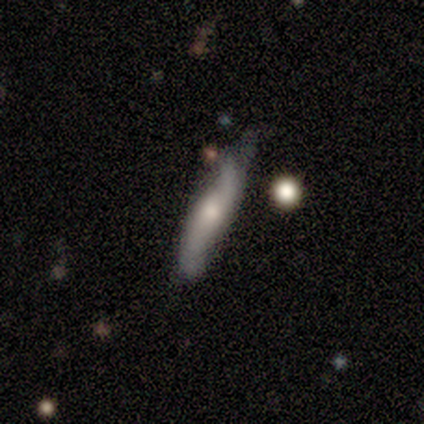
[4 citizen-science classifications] This is possibly a smooth galaxy (50%, tied with featured or disk). How rounded: possibly in between (50%, tied with cigar-shaped). Merging: possibly minor disturbance (50%).